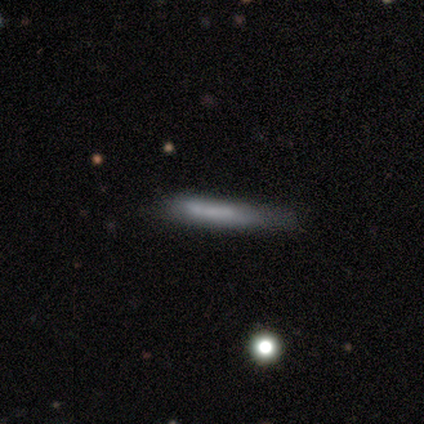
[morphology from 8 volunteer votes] smooth 62%, featured or disk 38%, star or artifact 0%. Down the decision tree: how rounded — cigar-shaped (80%); merging — none (100%).